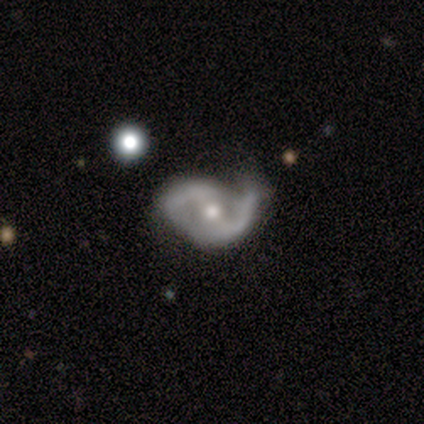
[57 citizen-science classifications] A featured or disk galaxy (91%) with a weak bar (50%), 2 (94%) medium (49%) spiral arms (90%) and a moderate central bulge (67%). Merging: none (52%).